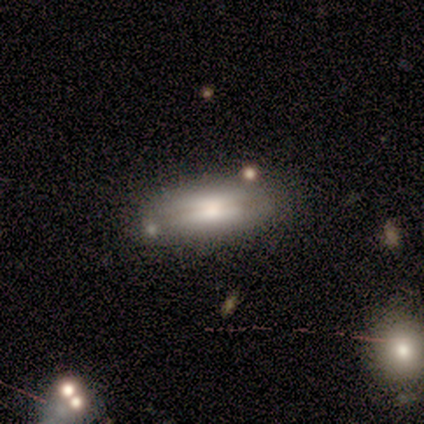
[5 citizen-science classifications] smooth-or-featured: smooth: 80% | featured or disk: 20% | star or artifact: 0%
  how-rounded: in between: 75% | cigar-shaped: 25% | round: 0%
  merging: none: 60% | major disturbance: 20% | merger: 20% | minor disturbance: 0%